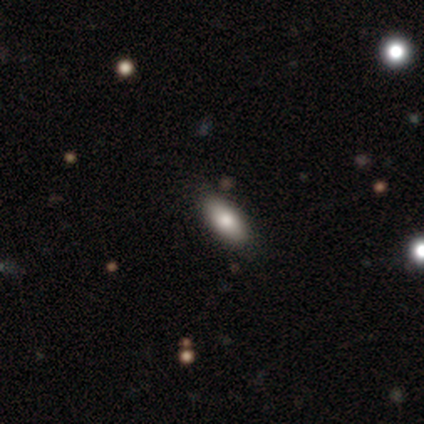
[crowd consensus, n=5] Smooth or featured? smooth (100%)
How rounded? in between (100%)
Merging? none (60%)